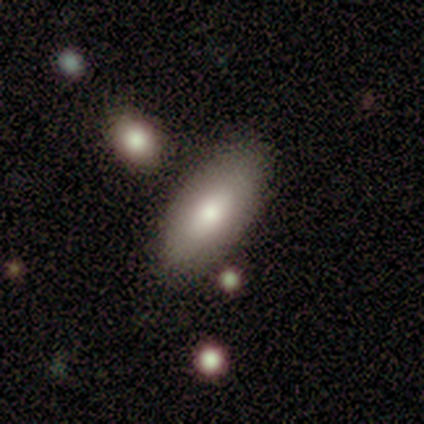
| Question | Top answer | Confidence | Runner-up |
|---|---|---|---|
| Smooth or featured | smooth | 80% | featured or disk (20%) |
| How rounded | in between | 100% | — |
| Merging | none | 60% | minor disturbance (40%) |